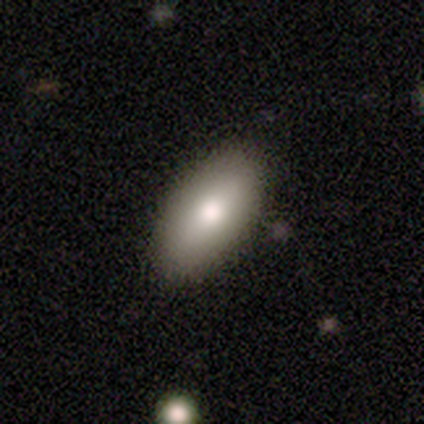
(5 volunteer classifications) This appears to be a smooth galaxy with no disk features (100%) that is in between round and cigar-shaped (100%). Merging: none (100%).